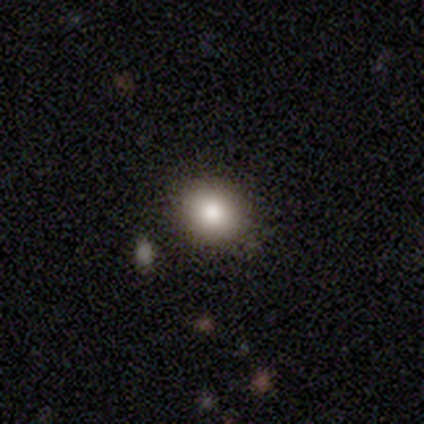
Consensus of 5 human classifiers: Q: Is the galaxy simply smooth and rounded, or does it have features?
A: smooth — 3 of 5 (60%).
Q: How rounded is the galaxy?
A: round — 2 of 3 (67%).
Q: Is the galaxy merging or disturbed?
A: none — 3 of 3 (100%).